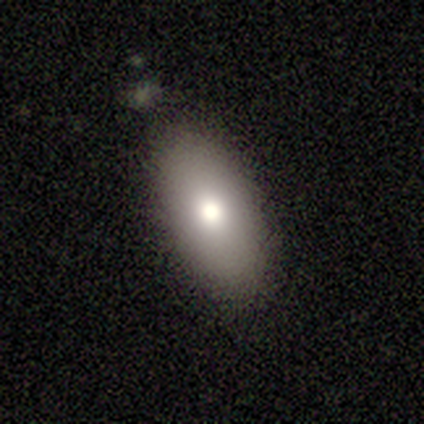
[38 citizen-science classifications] Overall: smooth (76%). How rounded: in between (86%). Merging: none (79%).